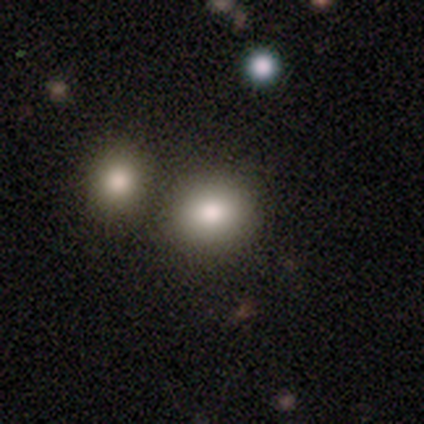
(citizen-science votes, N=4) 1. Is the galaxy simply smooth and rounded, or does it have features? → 75% smooth, 25% featured or disk, 0% star or artifact.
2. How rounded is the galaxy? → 67% in between, 33% round, 0% cigar-shaped.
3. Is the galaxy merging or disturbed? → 50% none (tied), 50% minor disturbance (tied), 0% major disturbance, 0% merger.